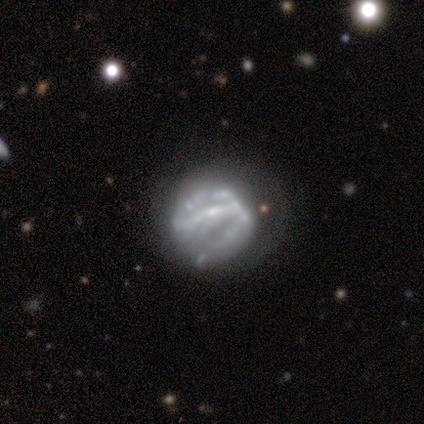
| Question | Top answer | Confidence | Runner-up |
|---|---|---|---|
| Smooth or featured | featured or disk | 100% | — |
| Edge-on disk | no | 100% | — |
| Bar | strong | 60% | weak (20%) |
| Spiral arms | yes | 60% | no (40%) |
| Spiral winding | tight | 67% | loose (33%) |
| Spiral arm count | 2 | 67% | 1 (33%) |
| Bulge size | moderate | 80% | small (20%) |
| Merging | minor disturbance | 40% | none (20%) |